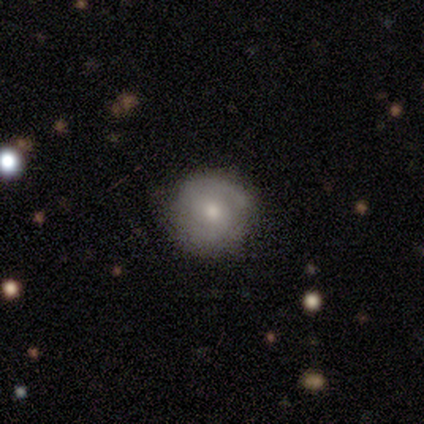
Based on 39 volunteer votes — Volunteers were most divided on "smooth or featured": smooth: 51%, featured or disk: 46%, star or artifact: 3%. More confident: how rounded — round (70%); merging — none (68%).